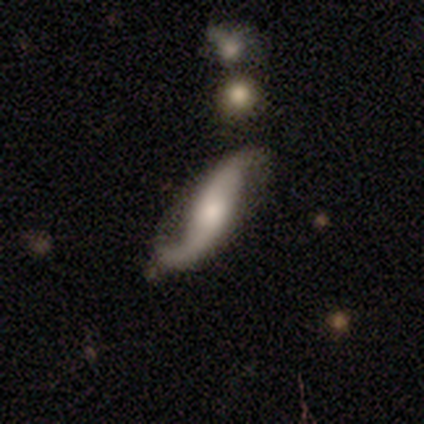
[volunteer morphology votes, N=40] Smooth or featured? 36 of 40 (90%) said featured or disk. Edge-on disk? 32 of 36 (89%) said no. Bar? 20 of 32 (62%) said no. Spiral arms? 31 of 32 (97%) said yes. Spiral winding? 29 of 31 (94%) said loose. Spiral arm count? 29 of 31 (94%) said 2. Bulge size? 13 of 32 (41%) said small. Merging? 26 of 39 (67%) said none.